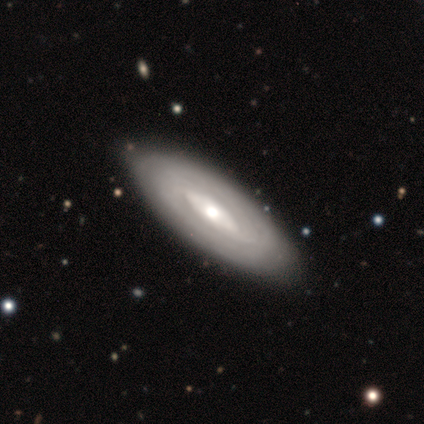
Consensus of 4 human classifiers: Q: Smooth or featured?
A: featured or disk (75%); runner-up: smooth (25%)
Q: Edge-on disk?
A: no (67%); runner-up: yes (33%)
Q: Bar?
A: strong (50%); tied with: no (50%)
Q: Spiral arms?
A: no (100%)
Q: Bulge size?
A: large (50%); tied with: moderate (50%)
Q: Merging?
A: minor disturbance (50%); runner-up: none (25%)